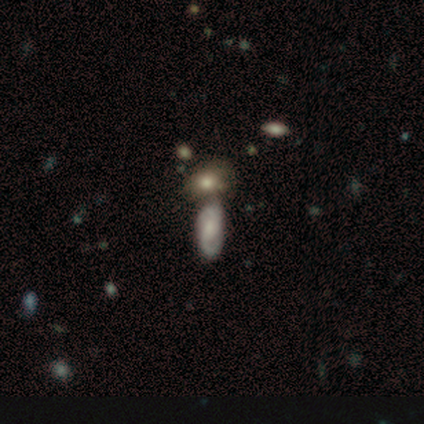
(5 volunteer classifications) Morphology: type=featured or disk (60%); edge-on=no (67%); bar=weak (50%, tied with no); spiral arms=yes (50%, tied with no); winding=tight (100%); arm count=2 (100%); bulge=dominant (50%, tied with moderate); merging=minor disturbance (40%, tied with merger).